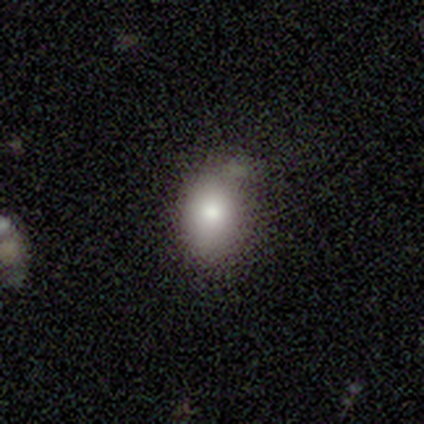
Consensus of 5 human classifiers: Smooth or featured? 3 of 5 (60%) said smooth. How rounded? 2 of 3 (67%) said in between. Merging? 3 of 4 (75%) said none.